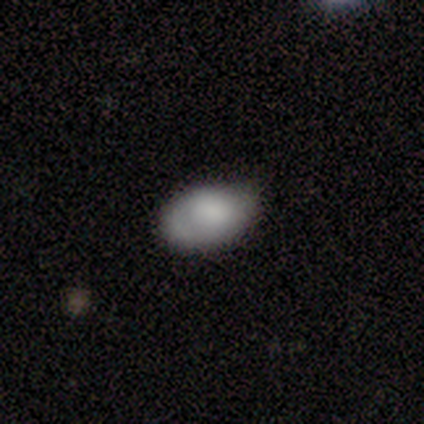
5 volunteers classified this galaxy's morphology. smooth 100%, featured or disk 0%, star or artifact 0%. Down the decision tree: how rounded — in between (60%); merging — none (100%).